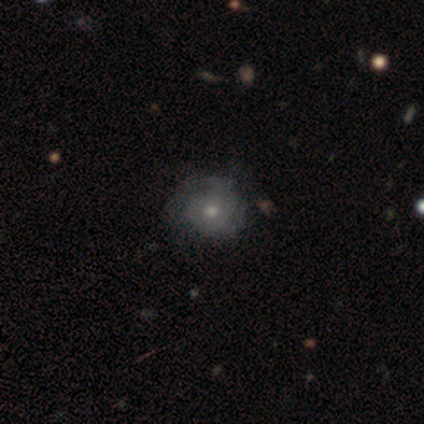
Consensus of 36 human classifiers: Overall: smooth (53%; featured or disk 36%). How rounded: round (68%; in between 32%). Merging: none (44%, tied with minor disturbance).